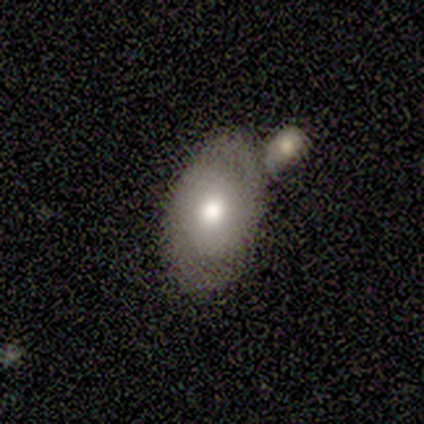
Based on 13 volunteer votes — Smooth or featured? featured or disk (54%)
Edge-on disk? no (100%)
Bar? no (71%)
Spiral arms? yes (100%)
Spiral winding? tight (71%)
Spiral arm count? 2 (86%)
Bulge size? moderate (100%)
Merging? none (54%)